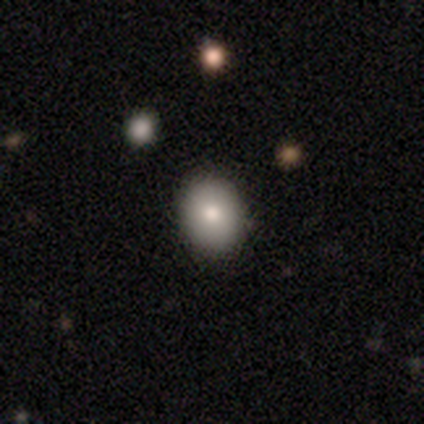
This appears to be a smooth galaxy with no disk features (90%) that is round (56%). Merging: none (100%).